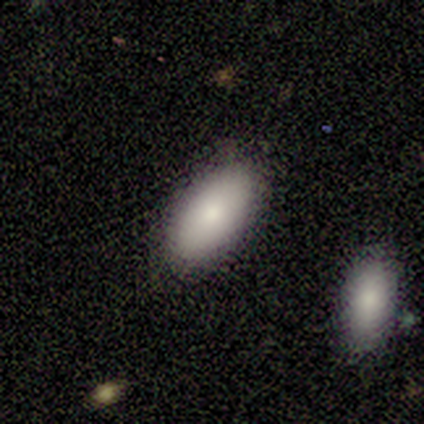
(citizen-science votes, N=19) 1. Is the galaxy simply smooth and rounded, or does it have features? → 74% smooth, 26% featured or disk, 0% star or artifact.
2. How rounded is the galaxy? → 93% in between, 7% round, 0% cigar-shaped.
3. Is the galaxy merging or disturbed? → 84% none, 16% minor disturbance, 0% major disturbance, 0% merger.